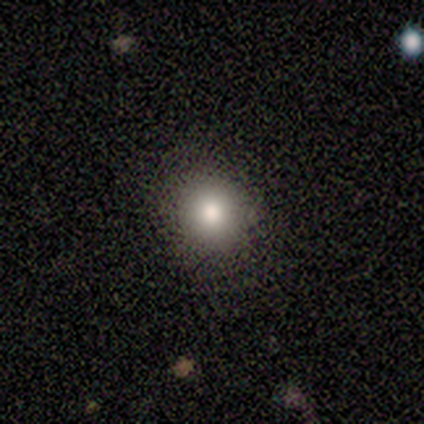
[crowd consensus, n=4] Smooth or featured?
  - smooth: 75% *
  - featured or disk: 25%
  - star or artifact: 0%
How rounded?
  - round: 100% *
  - in between: 0%
  - cigar-shaped: 0%
Merging?
  - none: 100% *
  - minor disturbance: 0%
  - major disturbance: 0%
  - merger: 0%